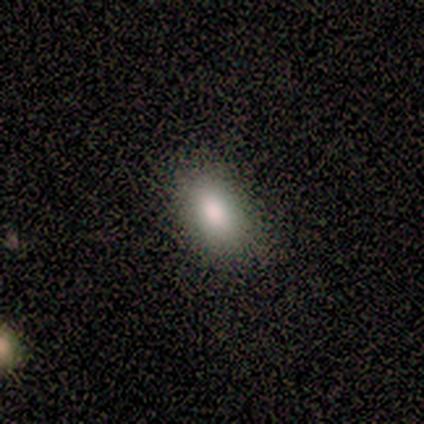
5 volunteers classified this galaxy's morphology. Q: Smooth or featured?
A: smooth (80%); runner-up: featured or disk (20%)
Q: How rounded?
A: in between (75%); runner-up: round (25%)
Q: Merging?
A: none (60%); runner-up: minor disturbance (40%)